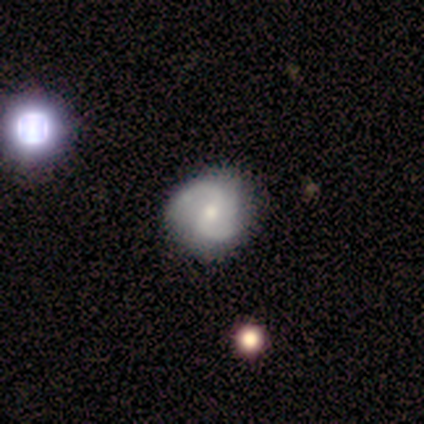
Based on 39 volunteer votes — Smooth or featured? 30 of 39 (77%) said featured or disk. Edge-on disk? 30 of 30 (100%) said no. Bar? 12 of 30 (40%) said weak. Spiral arms? 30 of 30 (100%) said yes. Spiral winding? 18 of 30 (60%) said medium. Spiral arm count? 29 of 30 (97%) said 2. Bulge size? 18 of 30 (60%) said small. Merging? 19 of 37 (51%) said none.